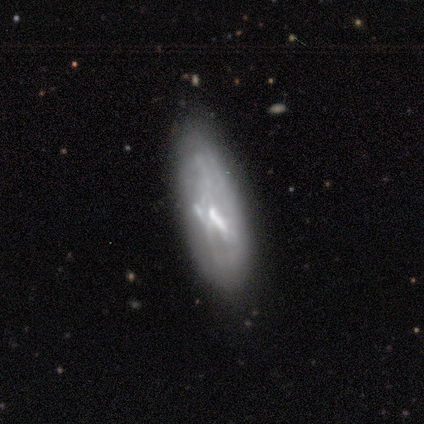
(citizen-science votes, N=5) Smooth or featured? 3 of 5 (60%) said featured or disk. Edge-on disk? 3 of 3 (100%) said no. Bar? 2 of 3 (67%) said no. Spiral arms? 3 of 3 (100%) said no. Bulge size? 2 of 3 (67%) said none. Merging? 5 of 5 (100%) said none.